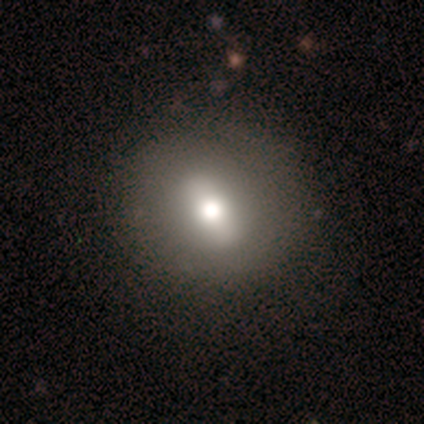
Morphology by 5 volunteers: Smooth or featured?
  - smooth: 40% * (tied)
  - featured or disk: 40% * (tied)
  - star or artifact: 20%
How rounded?
  - in between: 50% * (tied)
  - cigar-shaped: 50% * (tied)
  - round: 0%
Merging?
  - none: 100% *
  - minor disturbance: 0%
  - major disturbance: 0%
  - merger: 0%